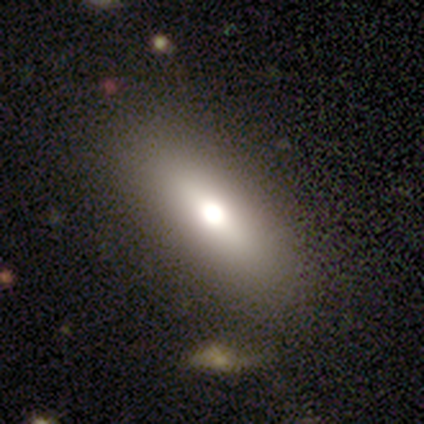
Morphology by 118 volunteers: Smooth or featured? 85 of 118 (72%) said smooth. How rounded? 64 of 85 (75%) said in between. Merging? 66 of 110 (60%) said none.